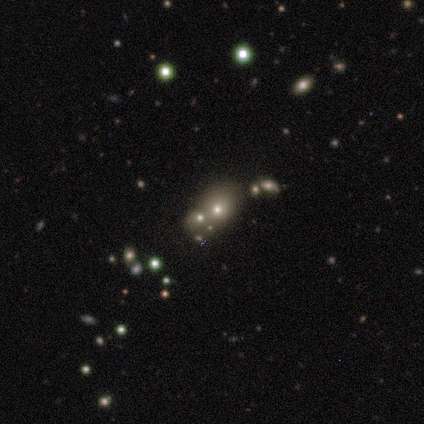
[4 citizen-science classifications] Q: Smooth or featured?
A: smooth (100%)
Q: How rounded?
A: round (75%); runner-up: in between (25%)
Q: Merging?
A: merger (50%); runner-up: none (25%)